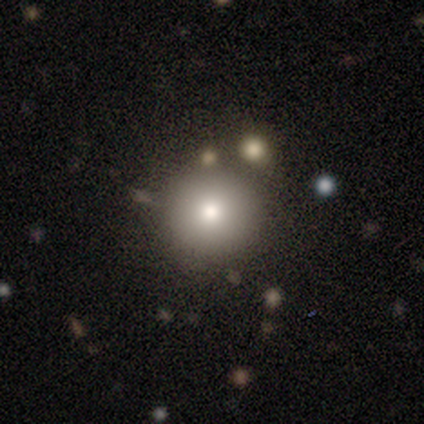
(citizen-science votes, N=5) Smooth or featured: smooth — 100%
How rounded: round — 100%
Merging: none — 100%